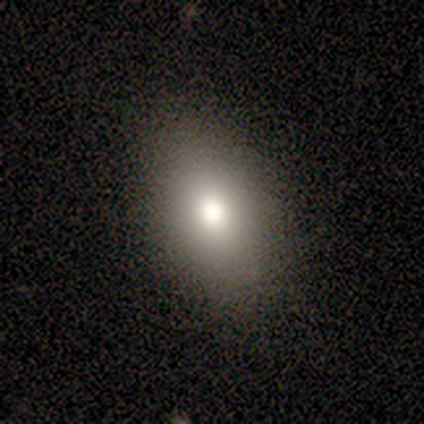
Q: Smooth or featured?
A: smooth (80%); runner-up: featured or disk (20%)
Q: How rounded?
A: in between (100%)
Q: Merging?
A: none (100%)